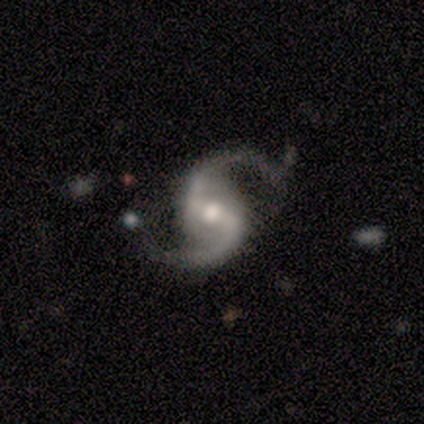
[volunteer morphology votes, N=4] Q: Smooth or featured?
A: featured or disk (100%)
Q: Edge-on disk?
A: no (100%)
Q: Bar?
A: strong (50%); tied with: weak (50%)
Q: Spiral arms?
A: yes (100%)
Q: Spiral winding?
A: medium (75%); runner-up: tight (25%)
Q: Spiral arm count?
A: 2 (100%)
Q: Bulge size?
A: moderate (50%); tied with: small (50%)
Q: Merging?
A: none (100%)